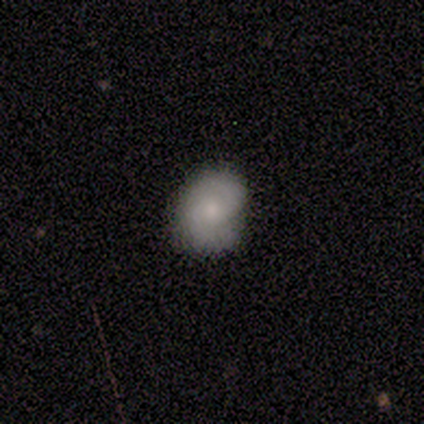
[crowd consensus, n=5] Smooth or featured? smooth (80%)
How rounded? in between (75%)
Merging? none (60%)